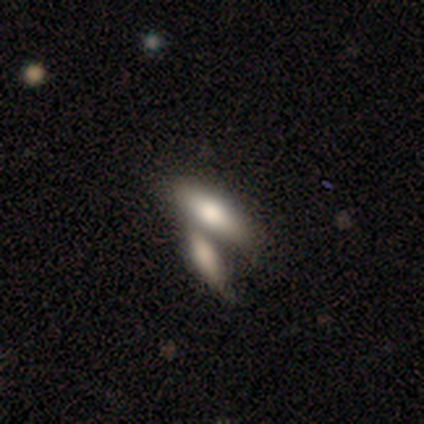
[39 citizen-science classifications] This appears to be a smooth galaxy with no disk features (77%) that is cigar-shaped (53%). Merging: merger (59%).